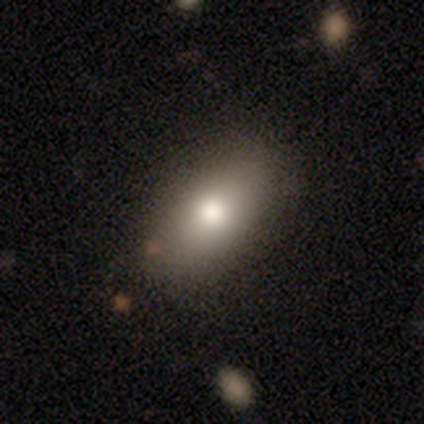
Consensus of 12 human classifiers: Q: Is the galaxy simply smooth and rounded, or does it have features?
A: smooth — 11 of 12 (92%).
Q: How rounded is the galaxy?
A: in between — 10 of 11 (91%).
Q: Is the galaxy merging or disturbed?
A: none — 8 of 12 (67%).